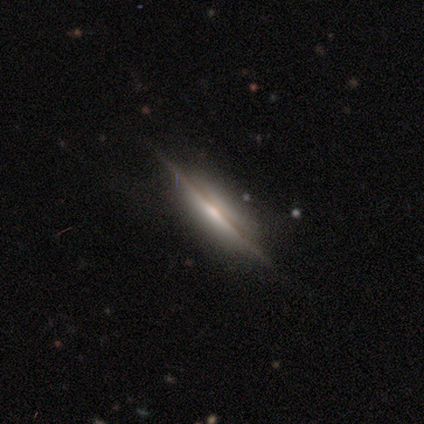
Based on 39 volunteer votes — Morphology: type=featured or disk (92%); edge-on=yes (97%); edge-on bulge=rounded (57%); merging=none (49%).